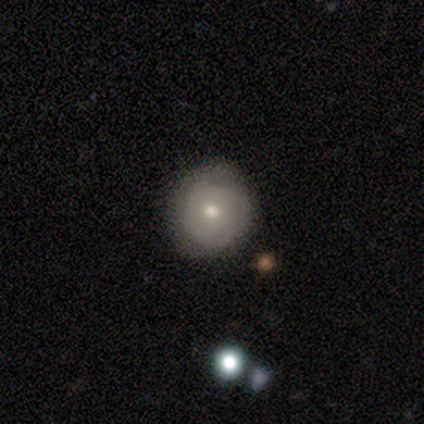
This is possibly a smooth galaxy (49%). How rounded: clearly round (89%). Merging: possibly none (54%).